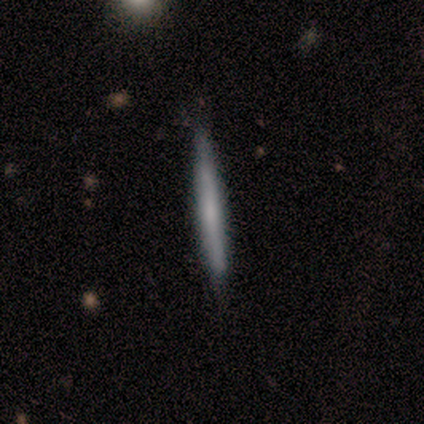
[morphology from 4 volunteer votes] smooth_or_featured: featured or disk (p=0.75) [alt: smooth p=0.25]
disk_edge_on: yes (p=1.00)
edge_on_bulge: none (p=0.67) [alt: boxy p=0.33]
merging: none (p=1.00)